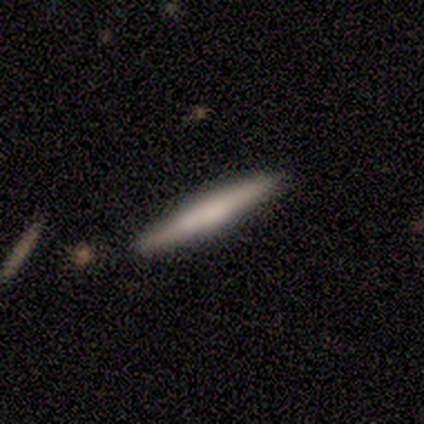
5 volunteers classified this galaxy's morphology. smooth_or_featured: smooth (p=0.60) [alt: featured or disk p=0.40]
how_rounded: cigar-shaped (p=1.00)
merging: none (p=0.80) [alt: minor disturbance p=0.20]